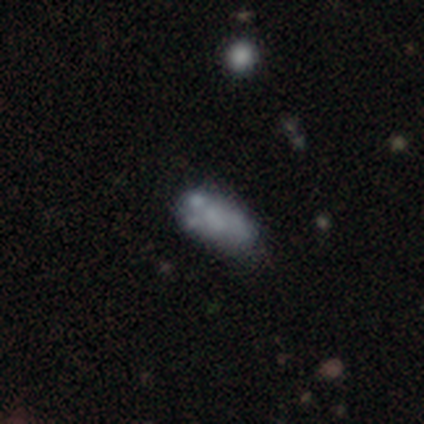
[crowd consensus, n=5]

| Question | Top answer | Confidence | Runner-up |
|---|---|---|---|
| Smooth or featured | smooth | 40% | tied: featured or disk (40%) |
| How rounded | in between | 100% | — |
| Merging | none | 75% | major disturbance (25%) |